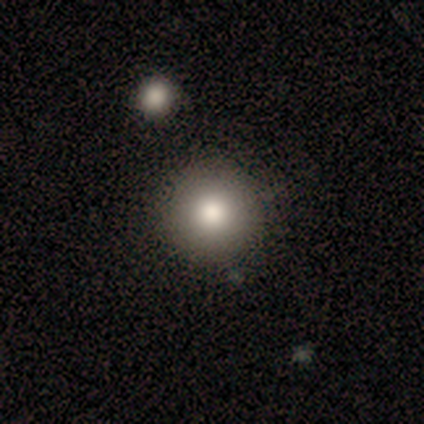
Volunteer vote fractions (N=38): This appears to be a smooth galaxy with no disk features (76%) that is round (100%). Merging: none (94%).